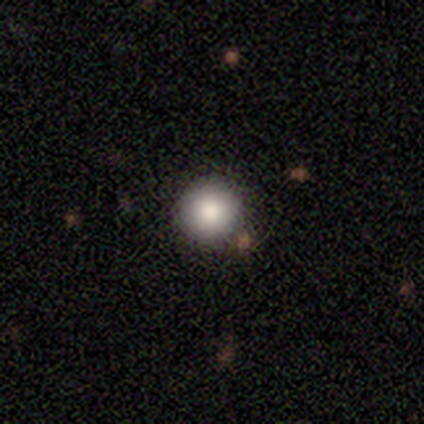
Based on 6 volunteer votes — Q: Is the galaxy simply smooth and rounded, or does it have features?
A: smooth — 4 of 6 (67%).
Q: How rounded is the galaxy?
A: round — 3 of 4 (75%).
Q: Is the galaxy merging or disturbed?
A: none — 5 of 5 (100%).